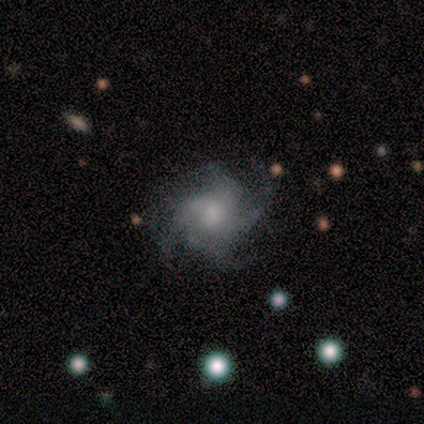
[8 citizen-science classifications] Smooth or featured? 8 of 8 (100%) said featured or disk. Edge-on disk? 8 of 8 (100%) said no. Bar? 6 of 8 (75%) said no. Spiral arms? 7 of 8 (88%) said yes. Spiral winding? 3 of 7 (43%, tied with medium) said tight. Spiral arm count? 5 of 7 (71%) said 4. Bulge size? 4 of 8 (50%) said small. Merging? 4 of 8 (50%) said none.